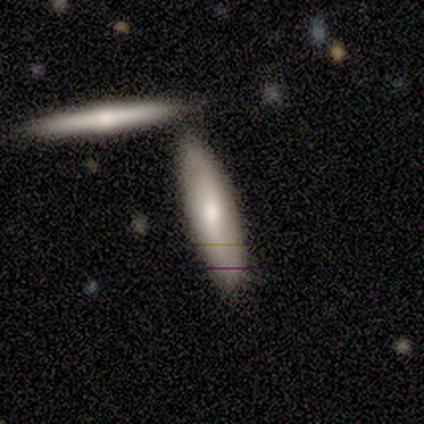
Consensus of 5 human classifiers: A smooth galaxy with no disk features (60%) that is cigar-shaped (100%).

Vote fractions:
- Smooth or featured? smooth: 60% / featured or disk: 40% / star or artifact: 0%
- How rounded? cigar-shaped: 100% / round: 0% / in between: 0%
- Merging? none: 60% / minor disturbance: 20% / merger: 20% / major disturbance: 0%